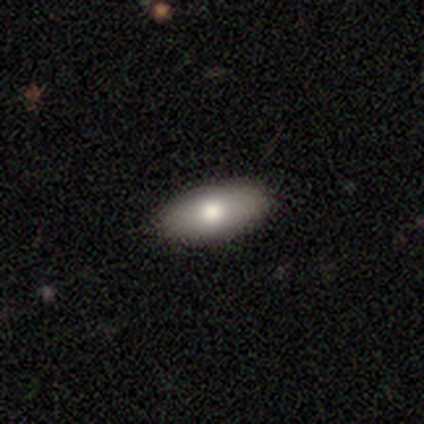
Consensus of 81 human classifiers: Smooth or featured? 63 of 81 (78%) said smooth. How rounded? 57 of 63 (90%) said in between. Merging? 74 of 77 (96%) said none.